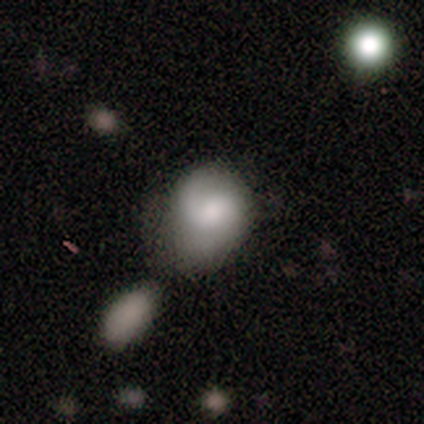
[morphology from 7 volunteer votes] A smooth galaxy with no disk features (71%) that is in between round and cigar-shaped (60%). Merging: none (57%).